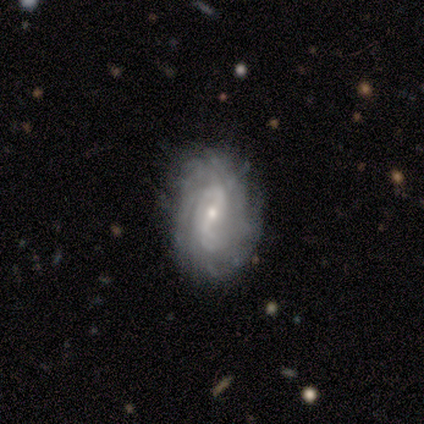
Smooth or featured: featured or disk — 80% (smooth — 20%)
Edge-on disk: no — 100%
Bar: no — 50% (strong — 25%)
Spiral arms: yes — 75% (no — 25%)
Spiral winding: medium — 100%
Spiral arm count: 2 — 67% (can't tell — 33%)
Bulge size: small — 75% (moderate — 25%)
Merging: none — 60% (minor disturbance — 40%)